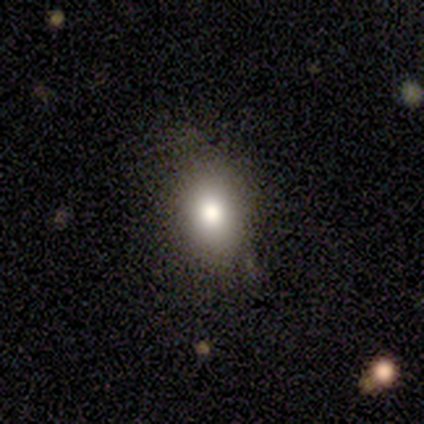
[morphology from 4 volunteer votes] Smooth or featured? 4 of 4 (100%) said smooth. How rounded? 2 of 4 (50%, tied with in between) said round. Merging? 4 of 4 (100%) said none.